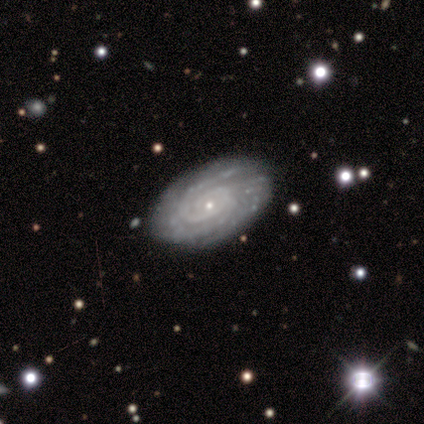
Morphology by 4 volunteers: Volunteers were most divided on "spiral arm count": can't tell: 50%, 1: 25%, more than 4: 25%, 2: 0%, 3: 0%, 4: 0%. More confident: smooth or featured — featured or disk (100%); edge-on disk — no (100%); bar — no (100%); spiral arms — yes (100%); bulge size — small (100%); merging — none (100%); spiral winding — tight (75%).